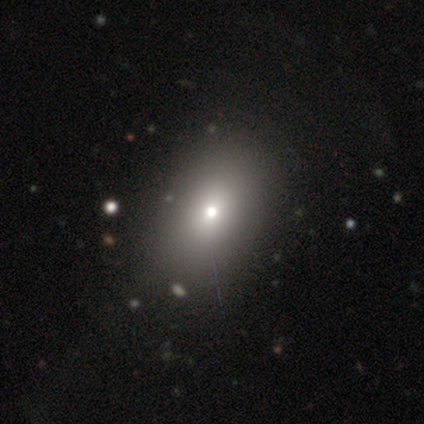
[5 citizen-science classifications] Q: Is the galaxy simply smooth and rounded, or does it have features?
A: smooth — 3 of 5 (60%).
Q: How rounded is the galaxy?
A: round — 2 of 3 (67%).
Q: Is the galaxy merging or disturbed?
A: none — 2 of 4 (50%).